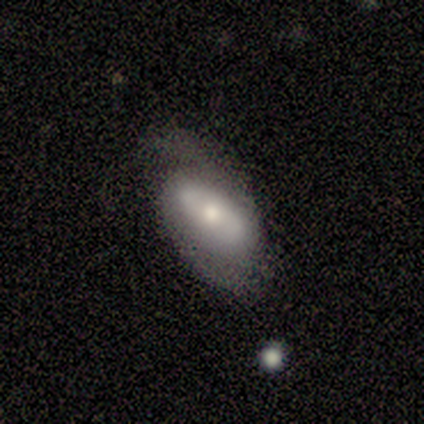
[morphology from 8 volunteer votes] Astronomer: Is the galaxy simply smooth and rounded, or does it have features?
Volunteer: featured or disk — 75%.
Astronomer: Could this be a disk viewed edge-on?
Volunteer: no — 83%.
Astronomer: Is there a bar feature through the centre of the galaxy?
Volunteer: no — 60% (runner-up: weak, 40%).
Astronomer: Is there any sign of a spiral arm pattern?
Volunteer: yes — 60% (runner-up: no, 40%).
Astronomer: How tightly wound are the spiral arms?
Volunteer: medium — 67%.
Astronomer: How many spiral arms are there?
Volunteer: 2 — 100%.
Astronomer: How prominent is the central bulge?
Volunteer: moderate — 80%.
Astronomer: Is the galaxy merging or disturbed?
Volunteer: minor disturbance — 57%.